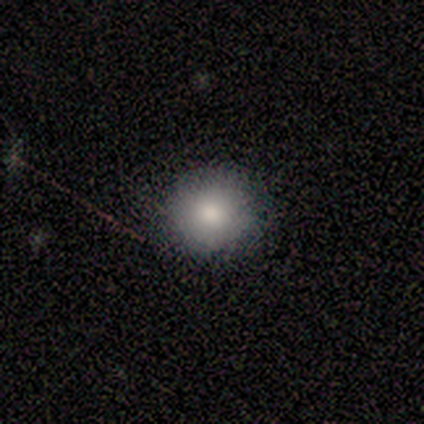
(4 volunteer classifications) Smooth or featured? 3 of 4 (75%) said smooth. How rounded? 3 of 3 (100%) said round. Merging? 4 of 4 (100%) said none.